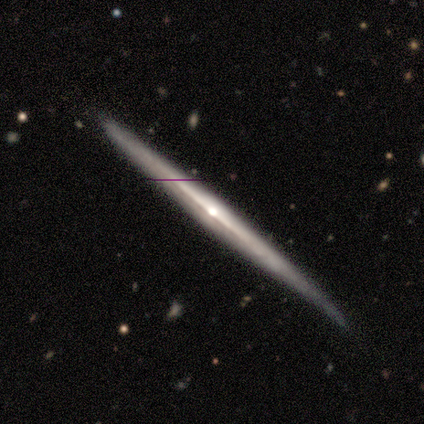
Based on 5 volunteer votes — A featured or disk galaxy (80%) viewed edge-on (100%) with a rounded central bulge (75%).

Vote fractions:
- Smooth or featured? featured or disk: 80% / smooth: 20% / star or artifact: 0%
- Edge-on disk? yes: 100% / no: 0%
- Edge-on bulge? rounded: 75% / none: 25% / boxy: 0%
- Merging? none: 60% / minor disturbance: 40% / major disturbance: 0% / merger: 0%